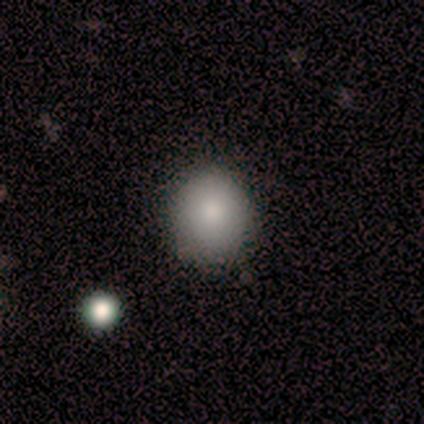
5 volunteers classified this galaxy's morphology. Smooth or featured?
  - smooth: 80% *
  - star or artifact: 20%
  - featured or disk: 0%
How rounded?
  - round: 50% * (tied)
  - in between: 50% * (tied)
  - cigar-shaped: 0%
Merging?
  - none: 100% *
  - minor disturbance: 0%
  - major disturbance: 0%
  - merger: 0%